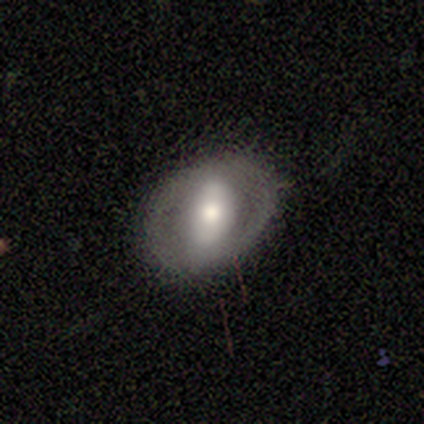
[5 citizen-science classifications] A featured or disk galaxy (60%) with no bar (67%), no spiral arms (67%) and a moderate central bulge (67%).

Vote fractions:
- Smooth or featured? featured or disk: 60% / smooth: 40% / star or artifact: 0%
- Edge-on disk? no: 100% / yes: 0%
- Bar? no: 67% / strong: 33% / weak: 0%
- Spiral arms? no: 67% / yes: 33%
- Bulge size? moderate: 67% / dominant: 33% / large: 0% / small: 0% / none: 0%
- Merging? none: 60% / major disturbance: 40% / minor disturbance: 0% / merger: 0%